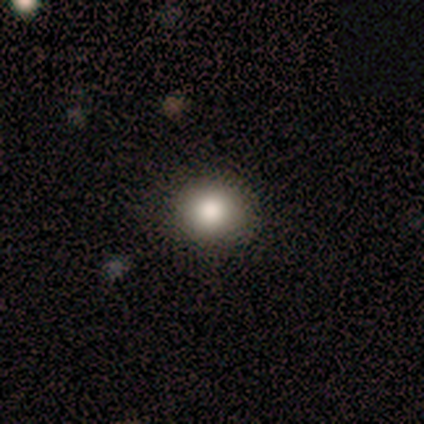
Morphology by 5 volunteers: A smooth galaxy with no disk features (80%) that is round (75%).

Vote fractions:
- Smooth or featured? smooth: 80% / star or artifact: 20% / featured or disk: 0%
- How rounded? round: 75% / in between: 25% / cigar-shaped: 0%
- Merging? none: 75% / minor disturbance: 25% / major disturbance: 0% / merger: 0%